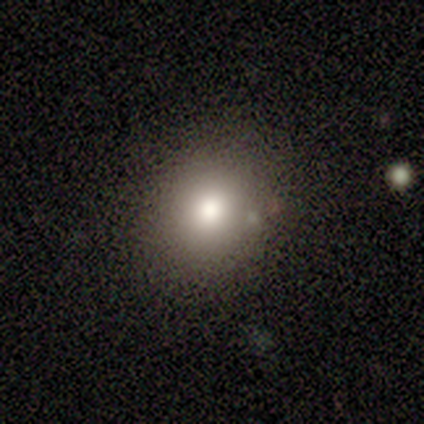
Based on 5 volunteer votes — smooth_or_featured: smooth (p=0.80) [alt: featured or disk p=0.20]
how_rounded: round (p=1.00)
merging: none (p=0.80) [alt: minor disturbance p=0.20]